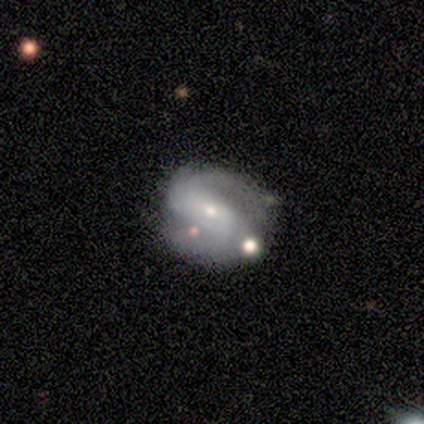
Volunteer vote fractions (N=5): smooth_or_featured: featured or disk (p=0.80) [alt: smooth p=0.20]
disk_edge_on: no (p=1.00)
bar: no (p=0.75) [alt: strong p=0.25]
has_spiral_arms: yes (p=1.00)
spiral_winding: tight (p=0.50) [alt: medium p=0.25]
spiral_arm_count: 2 (p=0.75) [alt: 3 p=0.25]
bulge_size: small (p=1.00)
merging: none (p=0.40) [tied with: minor disturbance p=0.40]